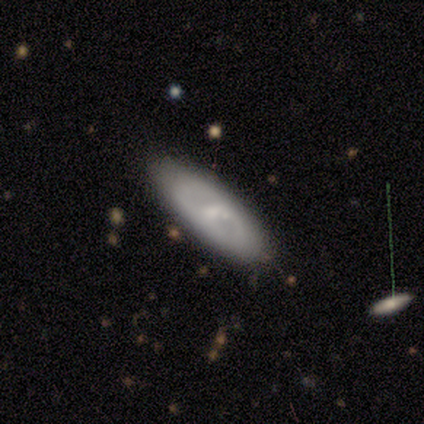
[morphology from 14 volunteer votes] Smooth or featured? featured or disk (57%)
Edge-on disk? no (88%)
Bar? strong (43%, tied with weak)
Spiral arms? no (71%)
Bulge size? moderate (57%)
Merging? none (85%)